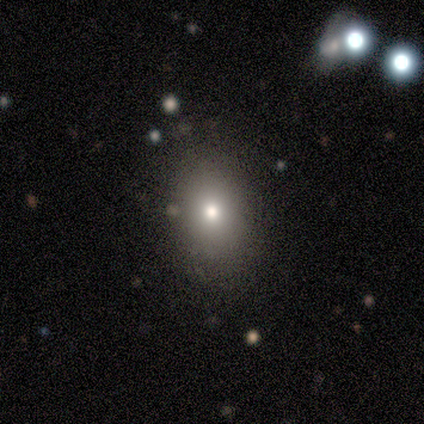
Smooth or featured? 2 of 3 (67%) said smooth. How rounded? 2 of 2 (100%) said in between. Merging? 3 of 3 (100%) said none.